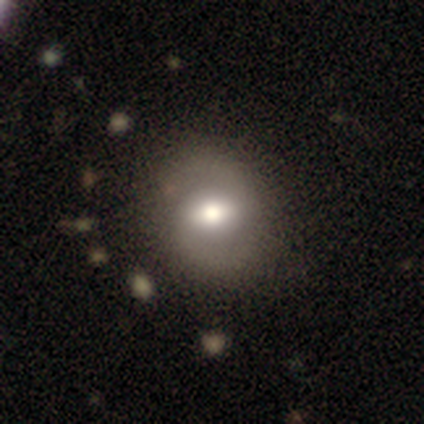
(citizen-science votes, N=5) Volunteers were most divided on "merging": none: 60%, minor disturbance: 40%, major disturbance: 0%, merger: 0%. More confident: smooth or featured — smooth (80%); how rounded — in between (75%).